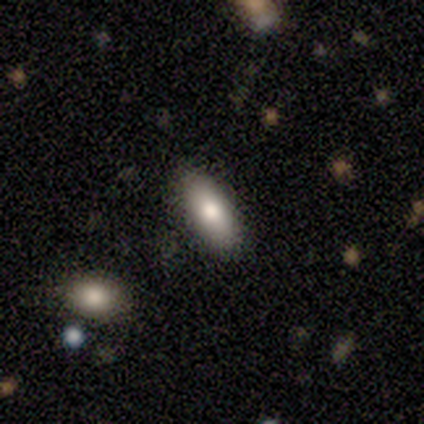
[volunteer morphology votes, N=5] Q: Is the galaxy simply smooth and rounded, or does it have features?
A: smooth — 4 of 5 (80%).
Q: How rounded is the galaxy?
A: in between — 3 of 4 (75%).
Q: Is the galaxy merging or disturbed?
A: none — 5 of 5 (100%).